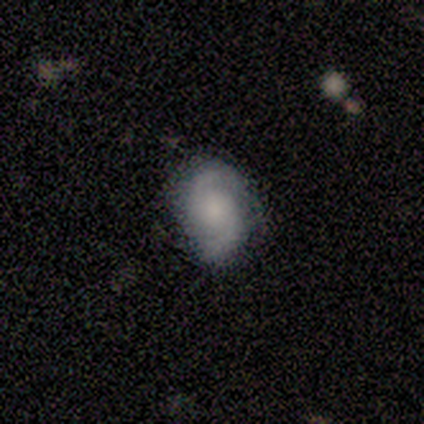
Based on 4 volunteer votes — A featured or disk galaxy (50%) with no bar (100%), 2 (100%) medium (100%) spiral arms (100%) and a small central bulge (50%, tied with none). Merging: none (100%).